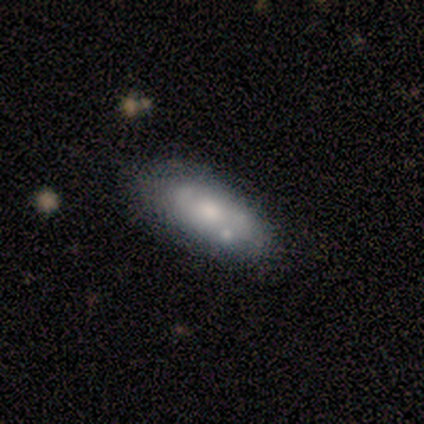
Smooth or featured? smooth (40%, tied with featured or disk)
How rounded? in between (100%)
Merging? none (75%)